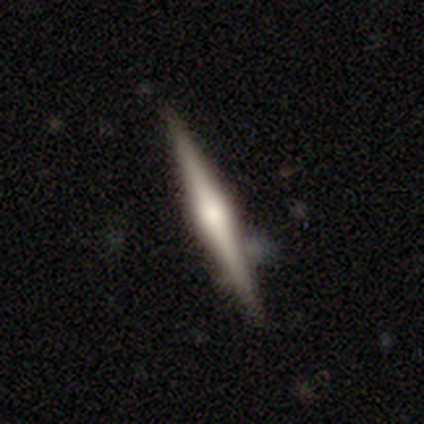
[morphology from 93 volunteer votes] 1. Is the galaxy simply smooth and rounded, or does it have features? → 78% featured or disk, 18% smooth, 3% star or artifact.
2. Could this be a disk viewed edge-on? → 97% yes, 3% no.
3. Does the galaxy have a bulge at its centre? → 86% rounded, 7% boxy, 7% none.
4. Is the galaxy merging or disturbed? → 79% none, 16% minor disturbance, 4% merger, 1% major disturbance.